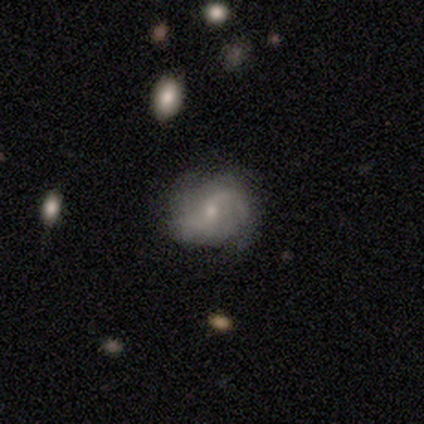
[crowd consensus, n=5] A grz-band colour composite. It shows a featured or disk galaxy (80%) with no bar (50%), 2 (67%) tight (67%) spiral arms (75%) and a moderate central bulge (50%, tied with small). Merging: none (60%).